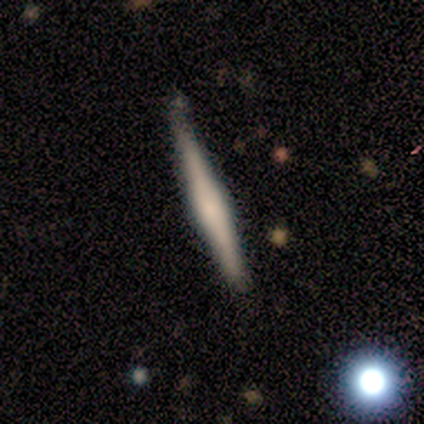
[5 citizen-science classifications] This is likely a featured or disk galaxy (60%). It is clearly viewed edge-on (100%). Edge-on bulge: likely rounded (67%). Merging: likely none (60%).